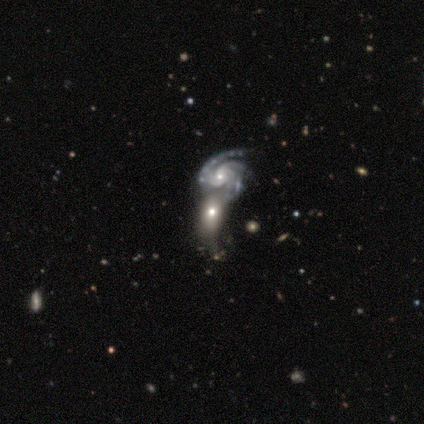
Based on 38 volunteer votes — smooth-or-featured: featured or disk: 66% | smooth: 32% | star or artifact: 3%
  disk-edge-on: no: 92% | yes: 8%
    bar: no: 61% | weak: 26% | strong: 13%
    has-spiral-arms: yes: 78% | no: 22%
      spiral-winding: tight: 50% (tied) | medium: 50% (tied) | loose: 0%
      spiral-arm-count: 2: 39% | 3: 33% | 4: 11% | 1: 6% | more than 4: 6% | can't tell: 6%
    bulge-size: small: 65% | moderate: 30% | large: 4% | dominant: 0% | none: 0%
  merging: merger: 73% | none: 11% | minor disturbance: 8% | major disturbance: 8%